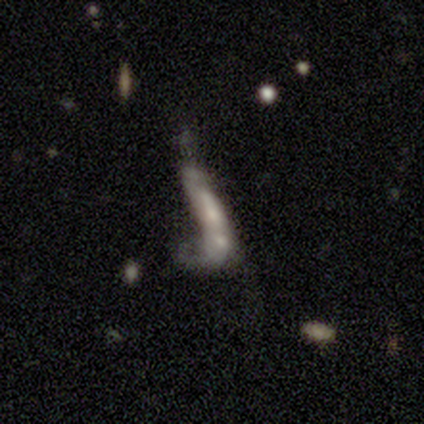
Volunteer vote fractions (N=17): Smooth or featured? smooth (47%, tied with featured or disk)
How rounded? cigar-shaped (62%)
Merging? merger (50%)